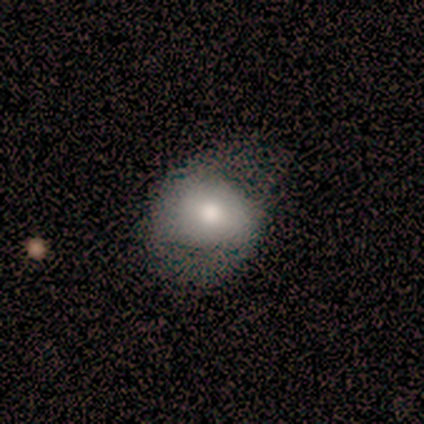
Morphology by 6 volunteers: Smooth or featured? smooth (100%)
How rounded? round (67%)
Merging? none (50%)